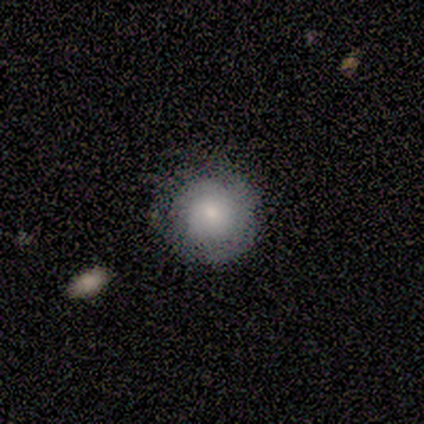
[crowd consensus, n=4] smooth 75%, featured or disk 25%, star or artifact 0%. Down the decision tree: how rounded — round (100%); merging — none (100%).